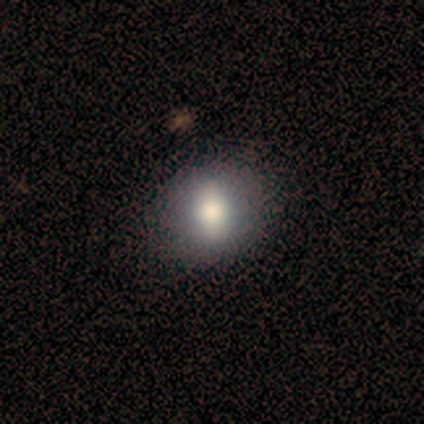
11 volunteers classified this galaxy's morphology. Smooth or featured?
  - smooth: 73% *
  - featured or disk: 27%
  - star or artifact: 0%
How rounded?
  - round: 62% *
  - in between: 38%
  - cigar-shaped: 0%
Merging?
  - none: 100% *
  - minor disturbance: 0%
  - major disturbance: 0%
  - merger: 0%